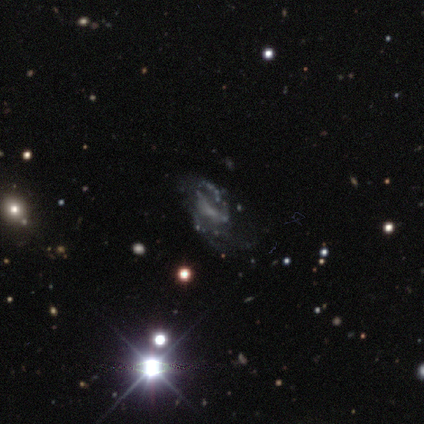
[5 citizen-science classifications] featured or disk 80%, star or artifact 20%, smooth 0%. Down the decision tree: edge-on disk — no (100%); bar — strong (50%); spiral arms — yes (100%); spiral arm count — 1 (25%, tied with 2, 4 and can't tell); spiral winding — medium (50%); bulge size — small (50%); merging — major disturbance (50%).